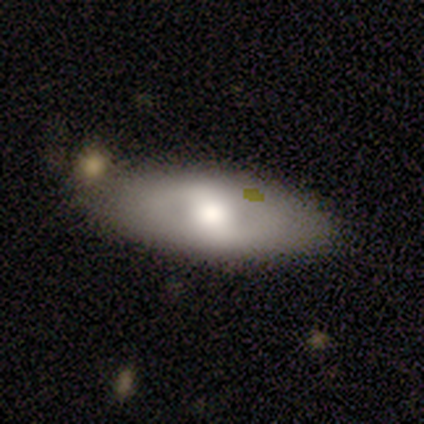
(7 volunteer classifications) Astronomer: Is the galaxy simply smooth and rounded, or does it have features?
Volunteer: featured or disk — 57% (runner-up: smooth, 43%).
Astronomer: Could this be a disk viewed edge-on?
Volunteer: no — 75%.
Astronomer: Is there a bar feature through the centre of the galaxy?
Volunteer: weak — 67%.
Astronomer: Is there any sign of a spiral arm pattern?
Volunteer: no — 67%.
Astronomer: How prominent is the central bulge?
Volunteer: moderate — 100%.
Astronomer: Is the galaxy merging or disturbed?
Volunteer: none — 86%.